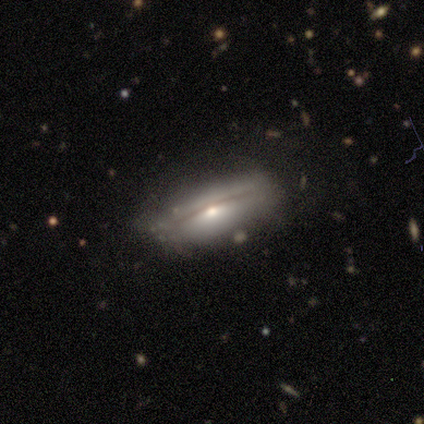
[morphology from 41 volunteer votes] Smooth or featured: featured or disk — 68% (smooth — 24%)
Edge-on disk: yes — 79% (no — 21%)
Edge-on bulge: rounded — 91% (boxy — 9%)
Merging: none — 79% (minor disturbance — 13%)